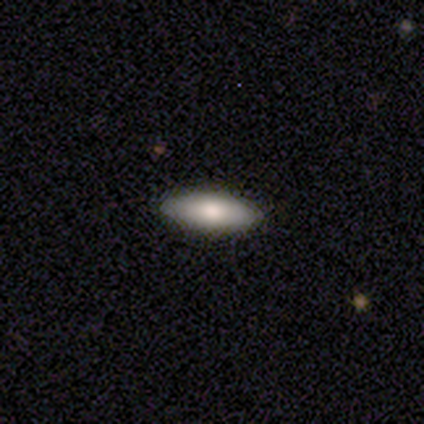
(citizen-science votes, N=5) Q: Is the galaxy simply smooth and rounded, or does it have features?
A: smooth — 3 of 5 (60%).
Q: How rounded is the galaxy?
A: cigar-shaped — 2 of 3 (67%).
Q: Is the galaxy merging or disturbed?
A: none — 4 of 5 (80%).